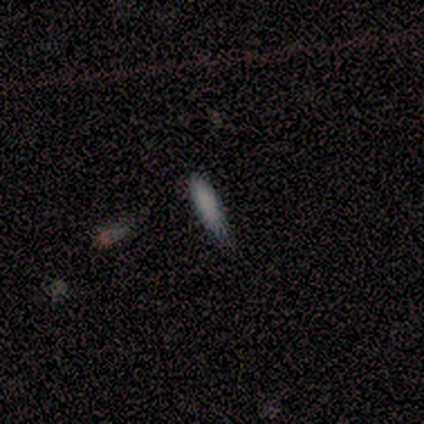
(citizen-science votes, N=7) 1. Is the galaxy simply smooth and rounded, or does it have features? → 57% smooth, 29% featured or disk, 14% star or artifact.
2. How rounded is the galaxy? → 75% cigar-shaped, 25% in between, 0% round.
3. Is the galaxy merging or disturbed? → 50% none (tied), 50% minor disturbance (tied), 0% major disturbance, 0% merger.